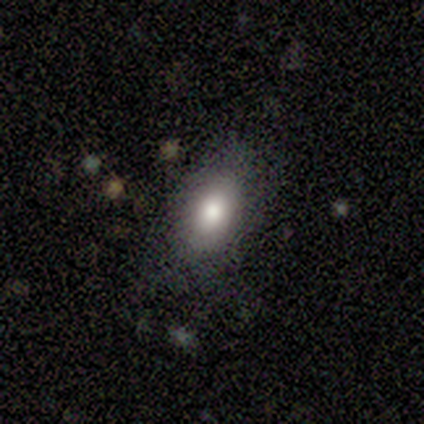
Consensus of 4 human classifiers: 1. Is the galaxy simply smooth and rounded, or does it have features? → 100% smooth, 0% featured or disk, 0% star or artifact.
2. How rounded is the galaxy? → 100% in between, 0% round, 0% cigar-shaped.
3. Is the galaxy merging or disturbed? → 100% none, 0% minor disturbance, 0% major disturbance, 0% merger.